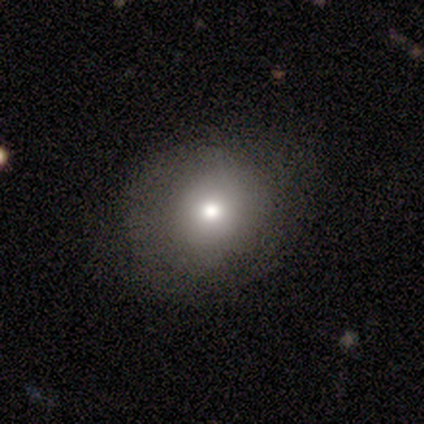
Q: Smooth or featured?
A: smooth (59%); runner-up: featured or disk (27%)
Q: How rounded?
A: round (73%); runner-up: in between (27%)
Q: Merging?
A: none (78%); runner-up: minor disturbance (16%)